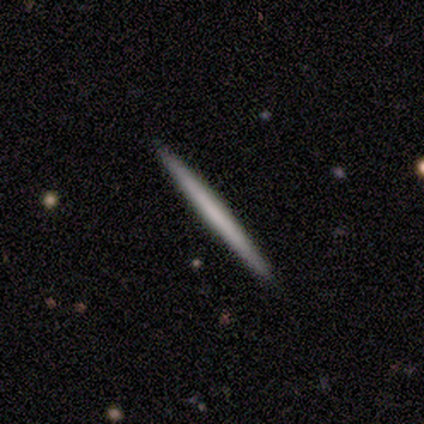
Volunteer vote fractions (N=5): Volunteers were most divided on "smooth or featured": smooth: 60%, featured or disk: 40%, star or artifact: 0%. More confident: how rounded — cigar-shaped (100%); merging — none (100%).